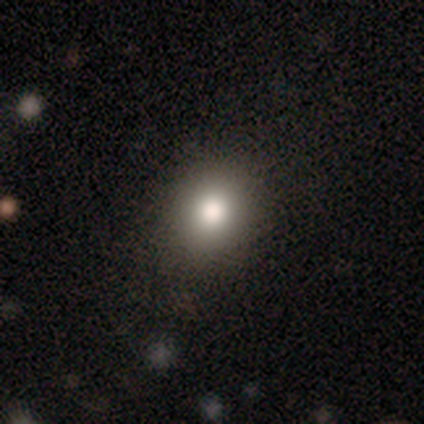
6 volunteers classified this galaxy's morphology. Q: Smooth or featured?
A: smooth (83%); runner-up: star or artifact (17%)
Q: How rounded?
A: round (100%)
Q: Merging?
A: none (100%)